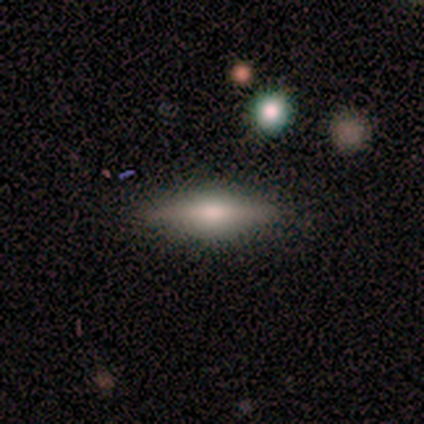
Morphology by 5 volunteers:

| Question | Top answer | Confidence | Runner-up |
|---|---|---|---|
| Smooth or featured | featured or disk | 80% | smooth (20%) |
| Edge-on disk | yes | 100% | — |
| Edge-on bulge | rounded | 100% | — |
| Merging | none | 100% | — |